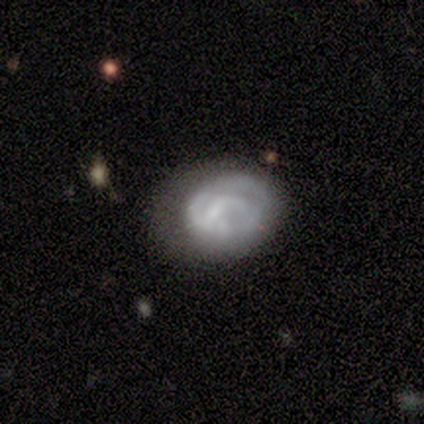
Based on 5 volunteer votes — smooth 60%, featured or disk 40%, star or artifact 0%. Down the decision tree: how rounded — in between (67%); merging — none (80%).